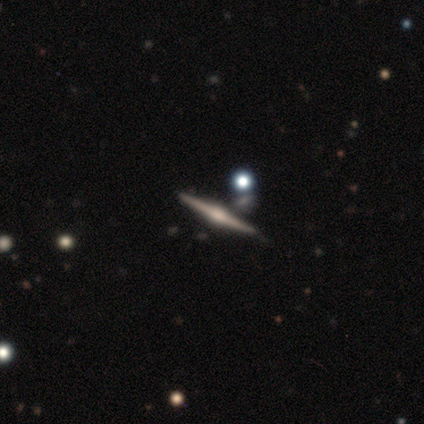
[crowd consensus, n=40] Smooth or featured? featured or disk (90%)
Edge-on disk? yes (97%)
Edge-on bulge? rounded (91%)
Merging? none (78%)